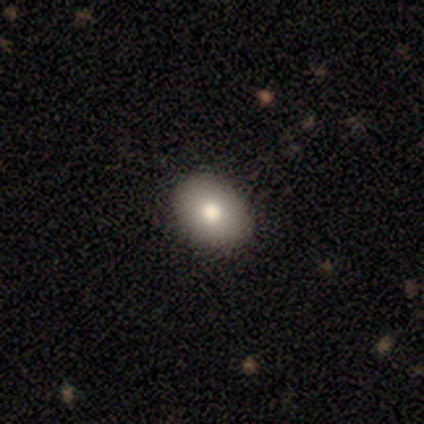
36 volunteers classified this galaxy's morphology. Volunteers were most divided on "how rounded": in between: 65%, round: 35%, cigar-shaped: 0%. More confident: merging — none (94%); smooth or featured — smooth (86%).